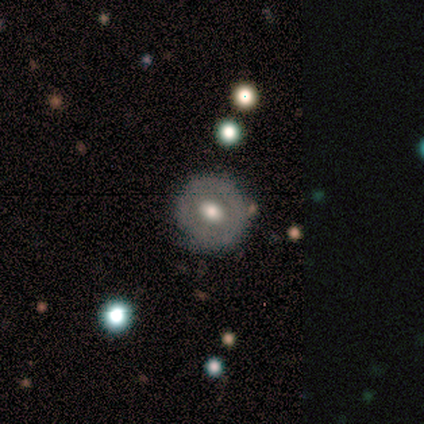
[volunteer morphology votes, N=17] This appears to be a featured or disk galaxy (53%) with no bar (56%), no spiral arms (78%) and a moderate central bulge (56%). Merging: none (94%).